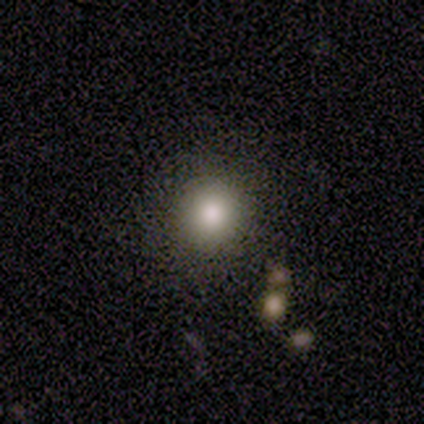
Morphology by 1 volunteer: A smooth galaxy with no disk features (100%) that is round (100%). Merging: none (100%).